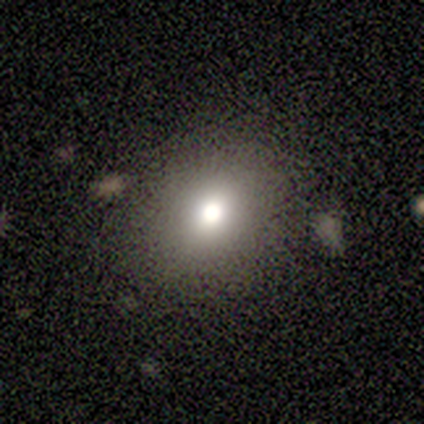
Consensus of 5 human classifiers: Smooth or featured? 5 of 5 (100%) said smooth. How rounded? 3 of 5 (60%) said round. Merging? 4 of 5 (80%) said none.